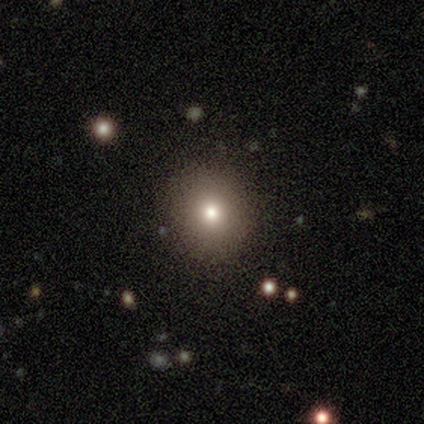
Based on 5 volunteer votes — Smooth or featured? 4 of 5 (80%) said smooth. How rounded? 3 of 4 (75%) said round. Merging? 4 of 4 (100%) said none.